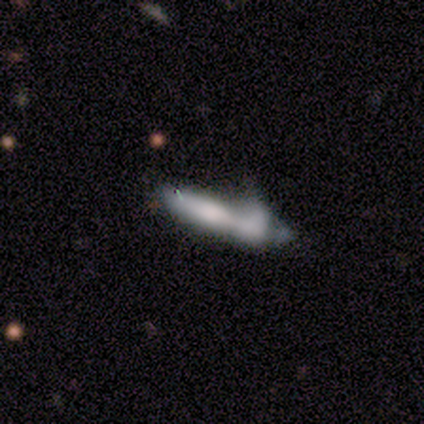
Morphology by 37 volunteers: This appears to be a smooth galaxy with no disk features (46%) that is cigar-shaped (76%). Merging: minor disturbance (39%).